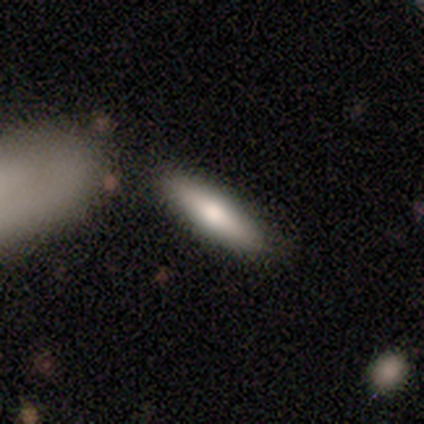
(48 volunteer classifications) Q: Smooth or featured?
A: smooth (75%); runner-up: featured or disk (19%)
Q: How rounded?
A: cigar-shaped (72%); runner-up: in between (28%)
Q: Merging?
A: none (82%); runner-up: minor disturbance (7%)